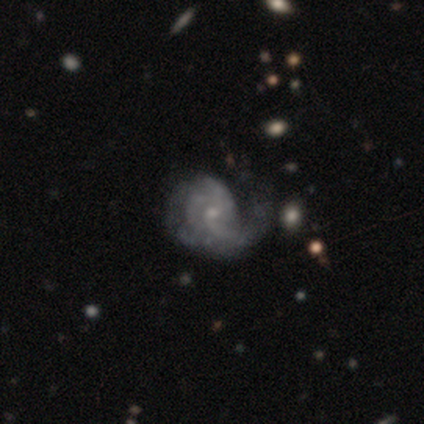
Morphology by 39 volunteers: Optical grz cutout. It shows a featured or disk galaxy (95%) with no bar (81%), 3 (64%) medium (55%) spiral arms (92%) and a small central bulge (67%). Merging: minor disturbance (26%).